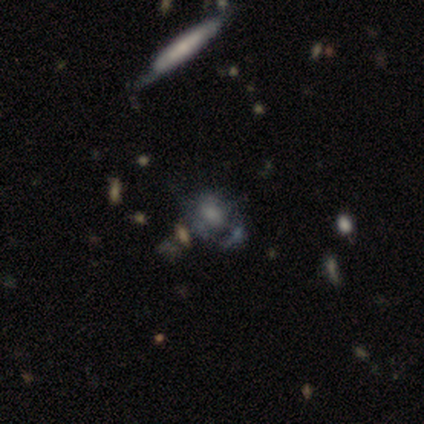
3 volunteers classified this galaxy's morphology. A smooth galaxy with no disk features (33%, tied with featured or disk and star or artifact) that is round (100%). Merging: none (50%, tied with minor disturbance).